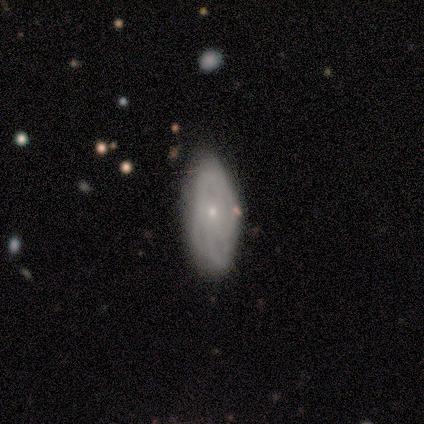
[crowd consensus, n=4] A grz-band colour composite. It shows a featured or disk galaxy (75%) with no bar (100%), no spiral arms (67%) and a small central bulge (100%). Merging: none (100%).